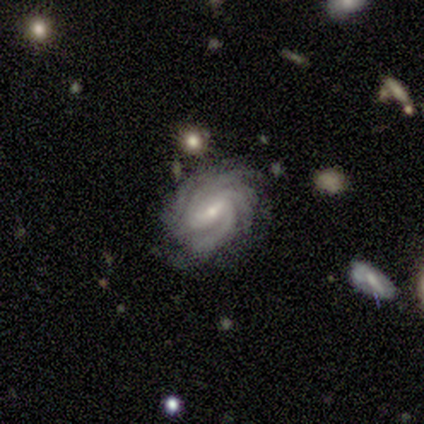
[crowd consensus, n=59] Morphology: type=featured or disk (93%); edge-on=no (98%); bar=weak (44%); spiral arms=yes (100%); winding=tight (70%); arm count=more than 4 (33%); bulge=small (67%); merging=none (71%).